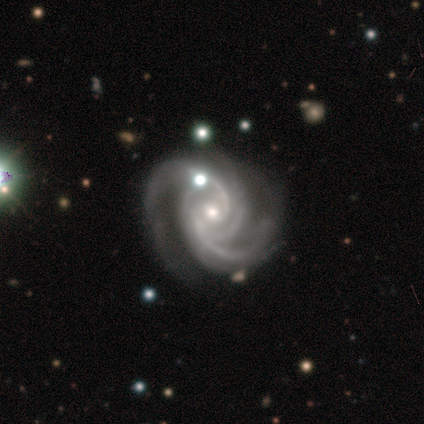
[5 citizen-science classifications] smooth_or_featured: featured or disk (p=1.00)
disk_edge_on: no (p=1.00)
bar: no (p=0.80) [alt: weak p=0.20]
has_spiral_arms: yes (p=1.00)
spiral_winding: tight (p=0.80) [alt: medium p=0.20]
spiral_arm_count: 3 (p=0.80) [alt: 2 p=0.20]
bulge_size: small (p=0.80) [alt: moderate p=0.20]
merging: none (p=0.80) [alt: minor disturbance p=0.20]